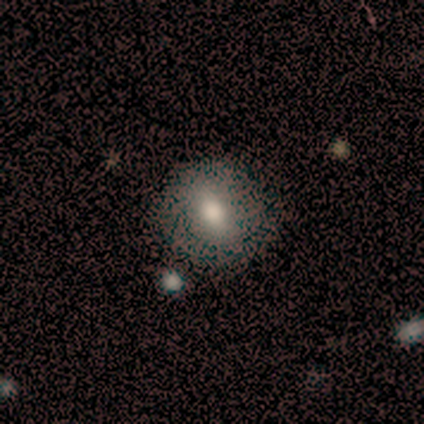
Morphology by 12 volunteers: smooth 50%, featured or disk 33%, star or artifact 17%. Down the decision tree: how rounded — round (83%); merging — none (100%).